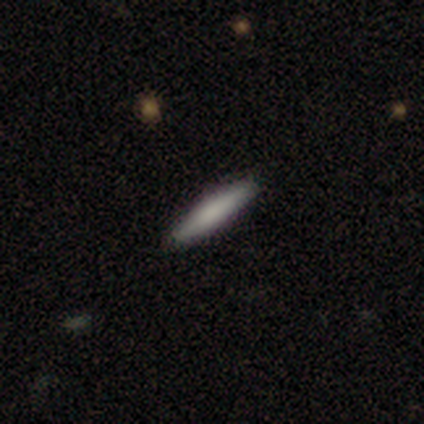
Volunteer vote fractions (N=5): This appears to be a featured or disk galaxy (60%) viewed edge-on (100%) with a boxy central bulge (33%, tied with none and rounded). Merging: none (100%).